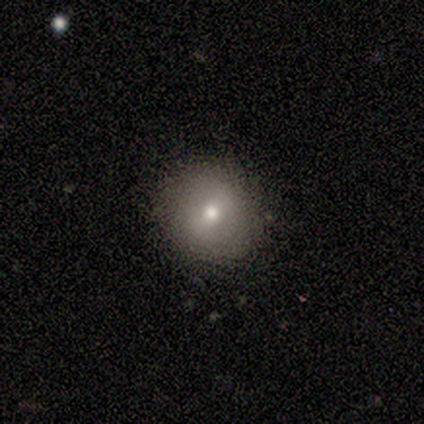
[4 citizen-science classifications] smooth-or-featured: smooth: 100% | featured or disk: 0% | star or artifact: 0%
  how-rounded: round: 75% | in between: 25% | cigar-shaped: 0%
  merging: none: 100% | minor disturbance: 0% | major disturbance: 0% | merger: 0%